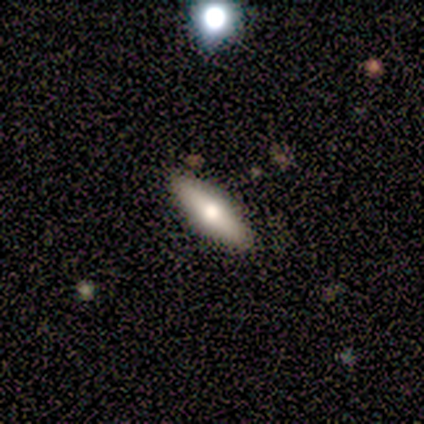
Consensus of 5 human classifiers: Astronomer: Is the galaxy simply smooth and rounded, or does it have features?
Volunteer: smooth — 60% (runner-up: featured or disk, 40%).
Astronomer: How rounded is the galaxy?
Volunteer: cigar-shaped — 67%.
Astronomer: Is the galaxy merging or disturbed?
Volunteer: none — 80%.